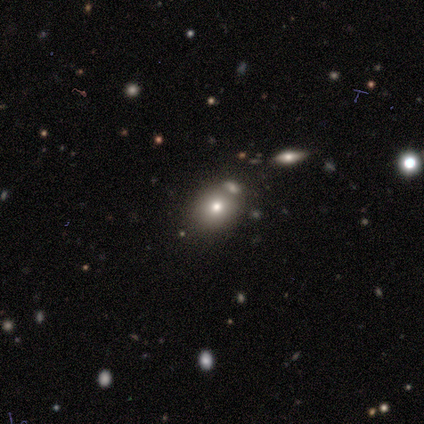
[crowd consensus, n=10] Volunteers were most divided on "how rounded": round: 60%, in between: 40%, cigar-shaped: 0%. More confident: merging — none (75%); smooth or featured — smooth (50%).